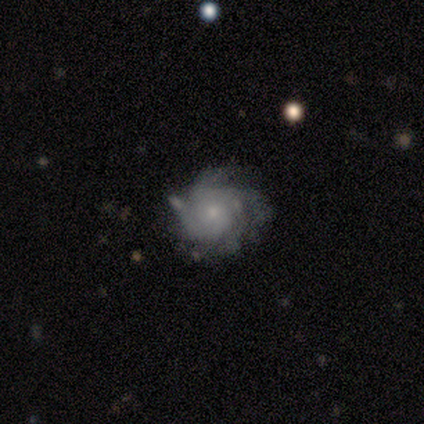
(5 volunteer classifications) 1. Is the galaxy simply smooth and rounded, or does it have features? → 60% featured or disk, 40% star or artifact, 0% smooth.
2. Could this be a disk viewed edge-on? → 100% no, 0% yes.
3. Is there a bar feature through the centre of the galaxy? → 100% no, 0% strong, 0% weak.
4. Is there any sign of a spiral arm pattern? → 67% yes, 33% no.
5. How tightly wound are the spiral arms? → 100% tight, 0% medium, 0% loose.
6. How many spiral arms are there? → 50% more than 4 (tied), 50% can't tell (tied), 0% 1, 0% 2, 0% 3, 0% 4.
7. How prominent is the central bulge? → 100% small, 0% dominant, 0% large, 0% moderate, 0% none.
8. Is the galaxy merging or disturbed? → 67% none, 33% major disturbance, 0% minor disturbance, 0% merger.